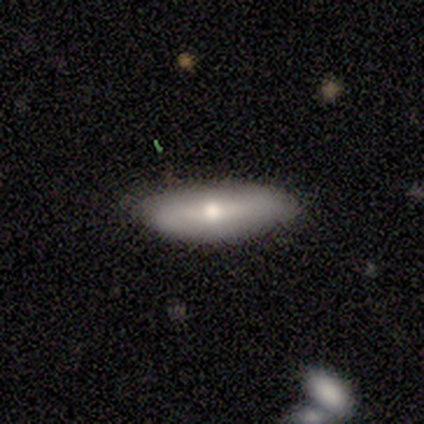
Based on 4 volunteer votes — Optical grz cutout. It shows a smooth galaxy with no disk features (50%, tied with featured or disk) that is in between round and cigar-shaped (50%, tied with cigar-shaped). Merging: none (100%).